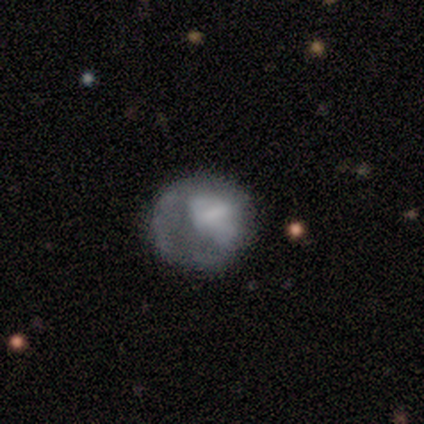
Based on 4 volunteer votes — Smooth or featured? smooth (75%)
How rounded? round (100%)
Merging? none (33%, tied with major disturbance and merger)